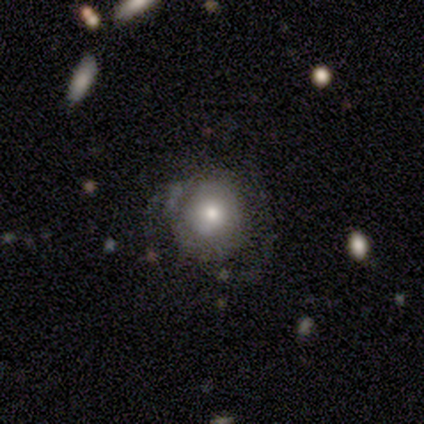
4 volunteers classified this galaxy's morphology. Smooth or featured: featured or disk — 75% (smooth — 25%)
Edge-on disk: no — 100%
Bar: no — 100%
Spiral arms: no — 67% (yes — 33%)
Bulge size: moderate — 100%
Merging: none — 75% (minor disturbance — 25%)